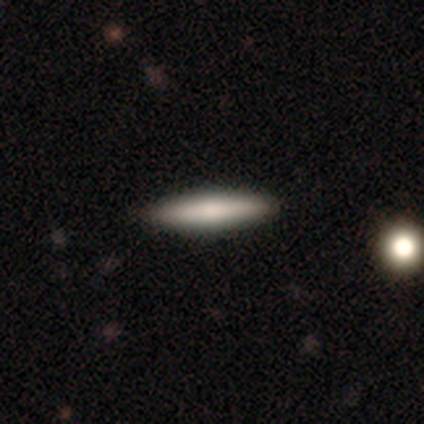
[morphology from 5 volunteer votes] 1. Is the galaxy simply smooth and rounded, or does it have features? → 40% smooth (tied), 40% featured or disk (tied), 20% star or artifact.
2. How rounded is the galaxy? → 100% cigar-shaped, 0% round, 0% in between.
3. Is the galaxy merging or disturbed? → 75% none, 25% major disturbance, 0% minor disturbance, 0% merger.